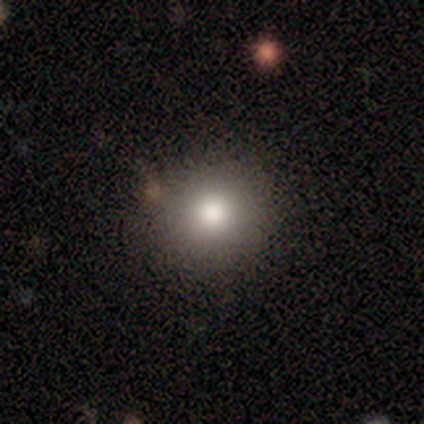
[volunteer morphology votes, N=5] Volunteers were most divided on "how rounded": round: 75%, in between: 25%, cigar-shaped: 0%. More confident: smooth or featured — smooth (80%); merging — none (80%).